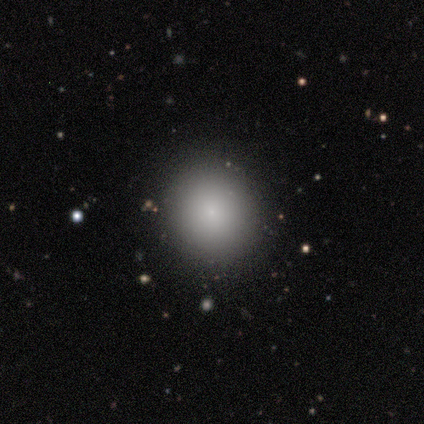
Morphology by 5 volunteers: type=smooth (80%); roundness=round (100%); merging=none (100%).